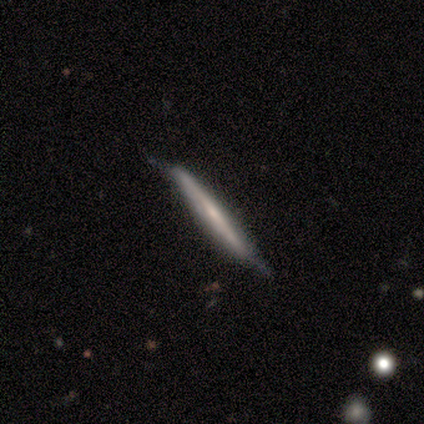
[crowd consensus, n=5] Smooth or featured: featured or disk — 60% (smooth — 40%)
Edge-on disk: yes — 67% (no — 33%)
Edge-on bulge: none — 100%
Merging: none — 100%